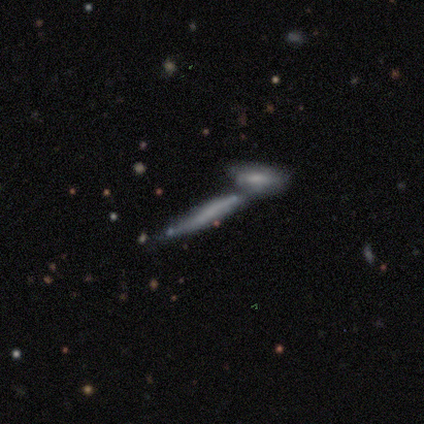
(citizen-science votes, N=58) Overall: featured or disk (55%; smooth 41%). Edge-on disk: yes (81%). Edge-on bulge: none (85%). Merging: merger (70%).